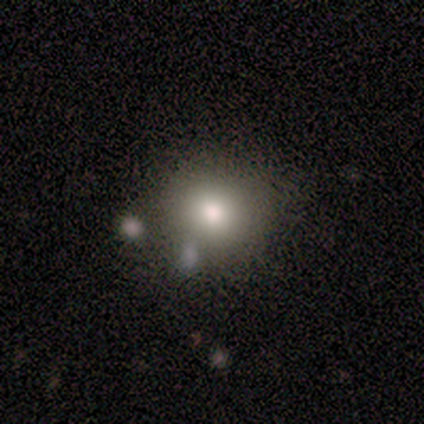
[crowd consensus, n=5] This appears to be a smooth galaxy with no disk features (80%) that is round (100%). Merging: none (100%).